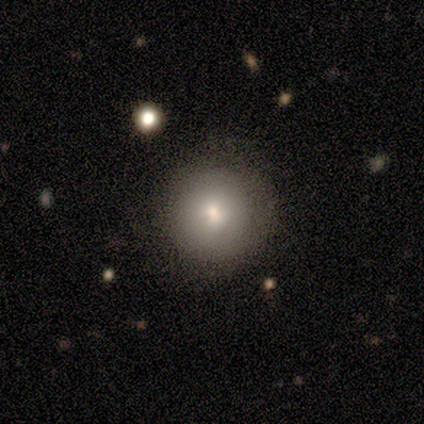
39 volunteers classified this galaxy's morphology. Volunteers were most divided on "merging": none: 66%, minor disturbance: 3%, major disturbance: 0%, merger: 0%. More confident: how rounded — round (97%); smooth or featured — smooth (79%).